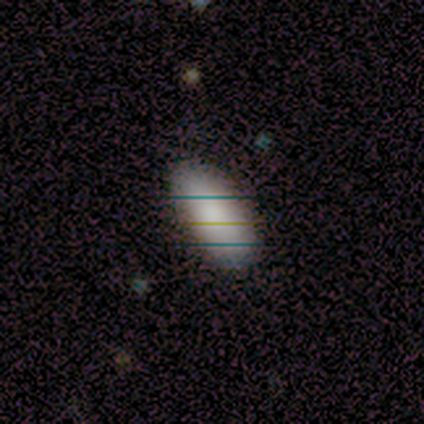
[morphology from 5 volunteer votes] This is clearly a smooth galaxy (80%). How rounded: clearly in between (100%). Merging: likely none (75%).